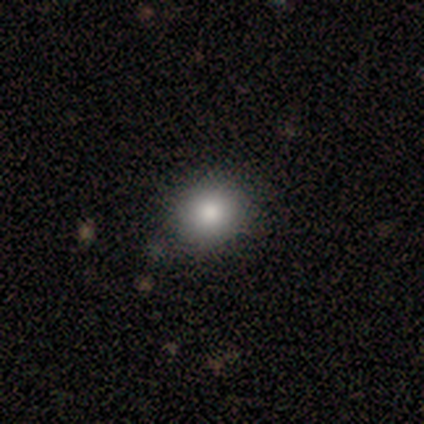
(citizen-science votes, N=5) This is clearly a smooth galaxy (80%). How rounded: likely round (75%). Merging: clearly none (80%).